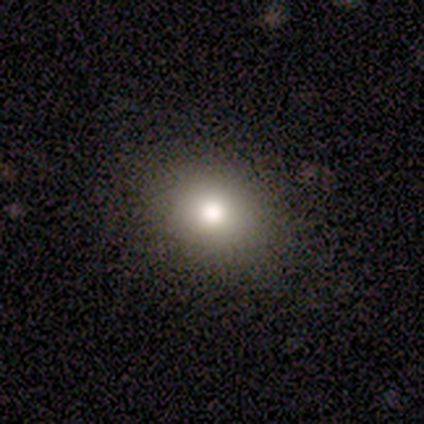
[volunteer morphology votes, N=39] A smooth galaxy with no disk features (74%) that is round (55%). Merging: none (81%).